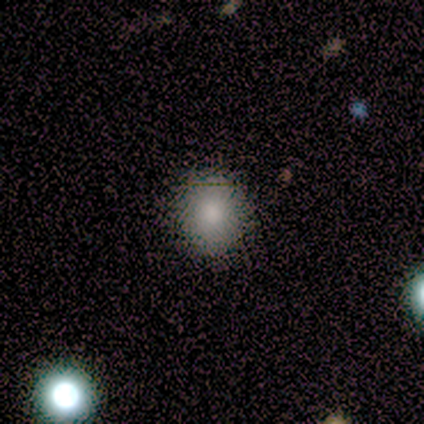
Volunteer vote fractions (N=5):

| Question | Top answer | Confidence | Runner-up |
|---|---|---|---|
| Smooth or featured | smooth | 40% | tied: featured or disk (40%) |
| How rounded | round | 50% | tied: in between (50%) |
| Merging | none | 75% | minor disturbance (25%) |